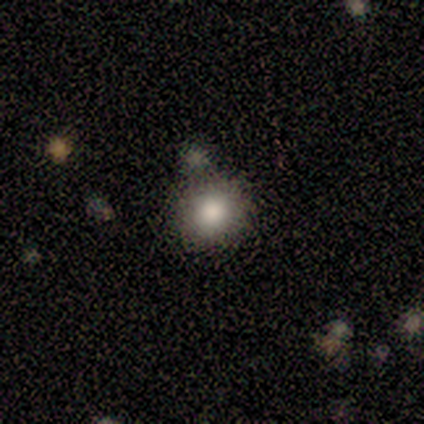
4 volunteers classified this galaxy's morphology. This is clearly a smooth galaxy (100%). How rounded: clearly round (100%). Merging: likely none (75%).